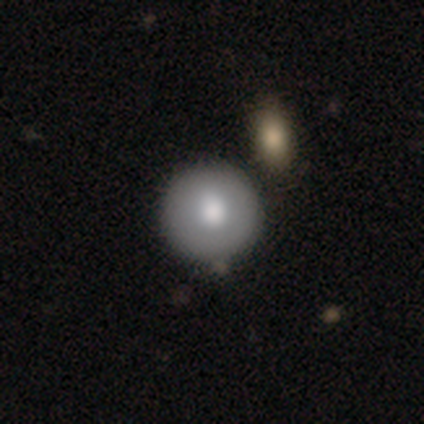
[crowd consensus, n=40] Smooth or featured? smooth (70%)
How rounded? round (93%)
Merging? none (49%)